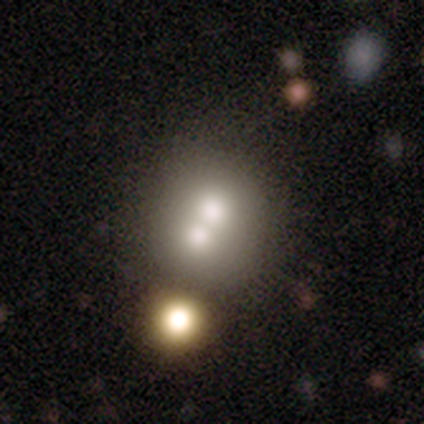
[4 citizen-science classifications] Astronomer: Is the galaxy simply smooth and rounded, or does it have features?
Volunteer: smooth — 50%, tied with featured or disk at 50%.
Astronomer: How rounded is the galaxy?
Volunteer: round — 50%, tied with in between at 50%.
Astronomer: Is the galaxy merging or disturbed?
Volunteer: none — 50%, tied with merger at 50%.